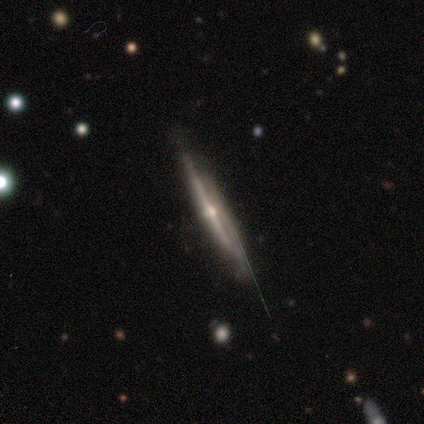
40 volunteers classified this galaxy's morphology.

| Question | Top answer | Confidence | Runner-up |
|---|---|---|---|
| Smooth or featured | featured or disk | 88% | smooth (8%) |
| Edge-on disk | yes | 100% | — |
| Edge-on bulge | rounded | 89% | none (11%) |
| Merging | none | 74% | minor disturbance (24%) |